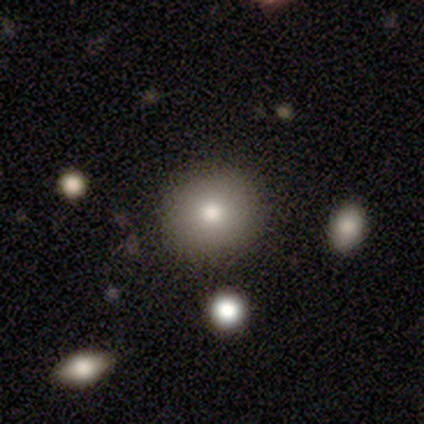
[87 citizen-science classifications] smooth-or-featured: smooth: 80% | featured or disk: 15% | star or artifact: 5%
  how-rounded: round: 90% | in between: 10% | cigar-shaped: 0%
  merging: none: 84% | minor disturbance: 11% | major disturbance: 4% | merger: 1%